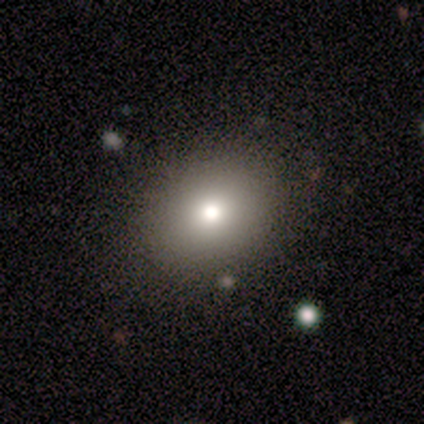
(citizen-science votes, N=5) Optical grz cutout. It shows a smooth galaxy with no disk features (100%) that is in between round and cigar-shaped (80%). Merging: none (80%).